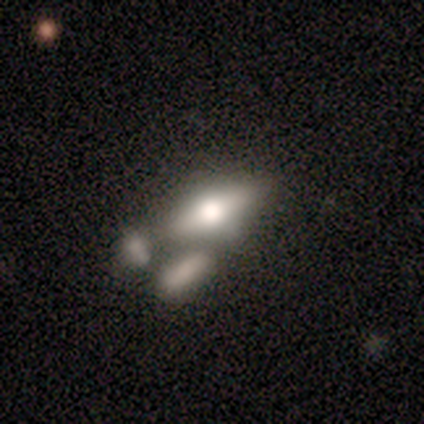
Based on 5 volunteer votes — Overall: smooth (40%, tied with featured or disk). How rounded: in between (100%). Merging: merger (75%).